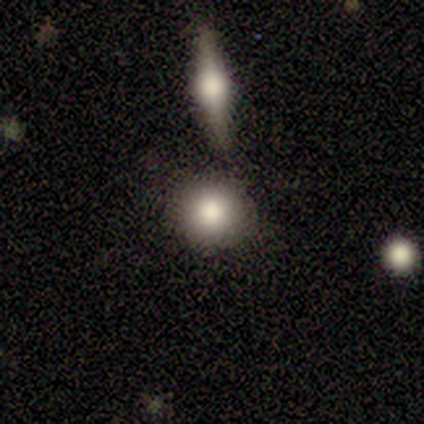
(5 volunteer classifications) smooth_or_featured: smooth (p=0.80) [alt: featured or disk p=0.20]
how_rounded: round (p=1.00)
merging: none (p=0.80) [alt: merger p=0.20]